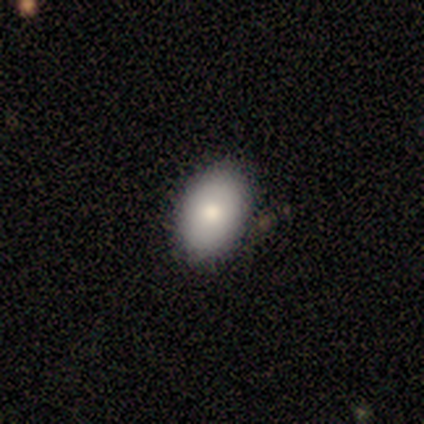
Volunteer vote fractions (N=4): Smooth or featured: smooth — 100%
How rounded: round — 50% (tied with in between — 50%)
Merging: none — 100%